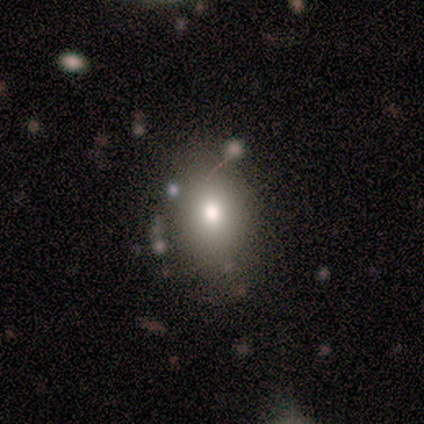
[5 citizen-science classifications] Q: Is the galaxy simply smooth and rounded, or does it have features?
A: smooth — 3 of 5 (60%).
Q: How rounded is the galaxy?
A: in between — 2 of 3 (67%).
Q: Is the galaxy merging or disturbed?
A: none — 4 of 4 (100%).